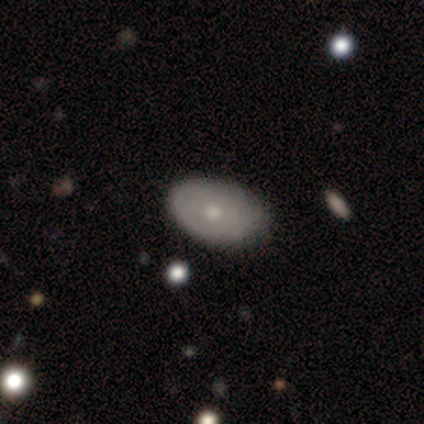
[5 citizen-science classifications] Volunteers were most divided on "smooth or featured": smooth: 60%, featured or disk: 40%, star or artifact: 0%. More confident: merging — none (80%); how rounded — in between (67%).